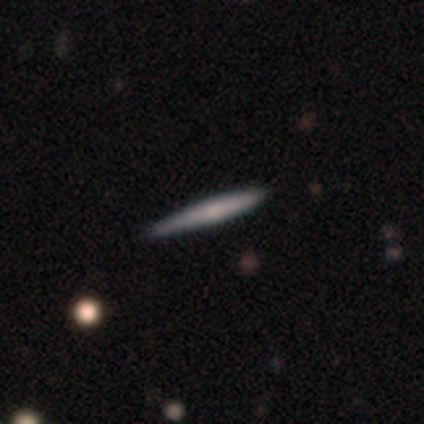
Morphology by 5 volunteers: type=smooth (60%); roundness=cigar-shaped (67%); merging=none (60%).